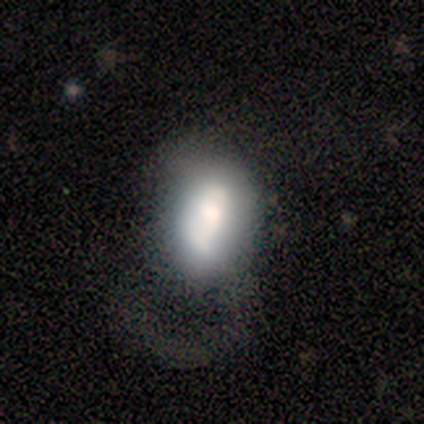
Smooth or featured? smooth (80%)
How rounded? in between (88%)
Merging? merger (60%)